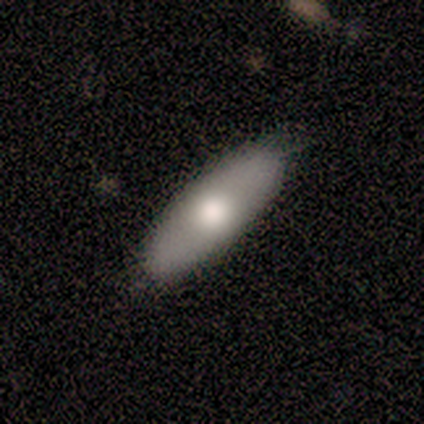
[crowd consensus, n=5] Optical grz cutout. It shows a featured or disk galaxy (60%) with no bar (100%), loose (100%) spiral arms (50%, tied with no) and a large central bulge (50%, tied with none). Merging: none (60%).